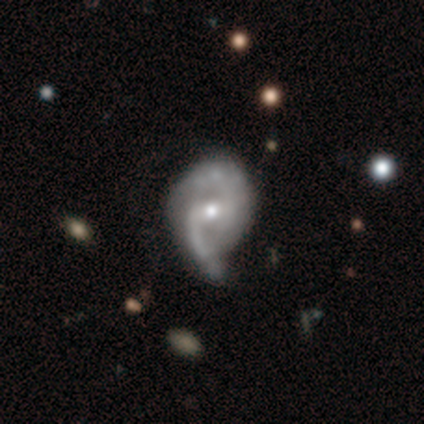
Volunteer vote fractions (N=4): Smooth or featured?
  - featured or disk: 100% *
  - smooth: 0%
  - star or artifact: 0%
Edge-on disk?
  - no: 100% *
  - yes: 0%
Bar?
  - weak: 75% *
  - no: 25%
  - strong: 0%
Spiral arms?
  - yes: 75% *
  - no: 25%
Spiral winding?
  - medium: 100% *
  - tight: 0%
  - loose: 0%
Spiral arm count?
  - 2: 100% *
  - 1: 0%
  - 3: 0%
  - 4: 0%
  - more than 4: 0%
  - can't tell: 0%
Bulge size?
  - moderate: 100% *
  - dominant: 0%
  - large: 0%
  - small: 0%
  - none: 0%
Merging?
  - major disturbance: 75% *
  - minor disturbance: 25%
  - none: 0%
  - merger: 0%